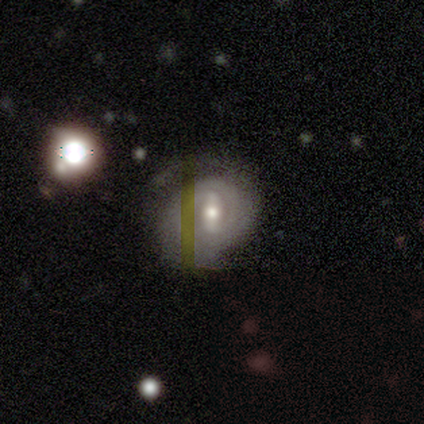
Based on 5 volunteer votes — Smooth or featured: featured or disk — 100%
Edge-on disk: no — 100%
Bar: strong — 40% (tied with weak — 40%)
Spiral arms: yes — 100%
Spiral winding: tight — 60% (medium — 40%)
Spiral arm count: 2 — 40% (tied with can't tell — 40%)
Bulge size: moderate — 60% (small — 40%)
Merging: minor disturbance — 60% (none — 40%)